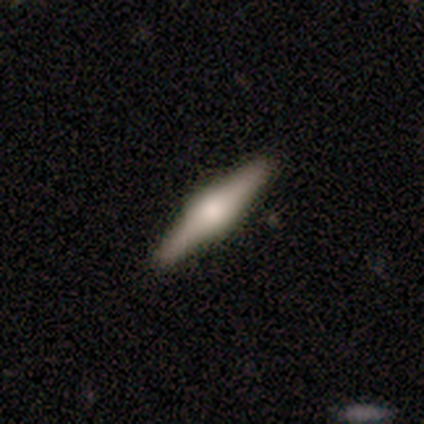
This is clearly a featured or disk galaxy (81%). It is clearly viewed edge-on (100%). Edge-on bulge: clearly rounded (83%). Merging: clearly none (92%).